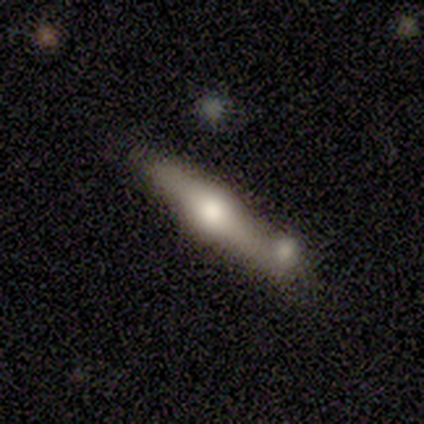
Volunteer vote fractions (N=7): smooth_or_featured: featured or disk (p=0.71) [alt: smooth p=0.29]
disk_edge_on: yes (p=1.00)
edge_on_bulge: rounded (p=0.80) [alt: boxy p=0.20]
merging: minor disturbance (p=0.43) [alt: none p=0.29]